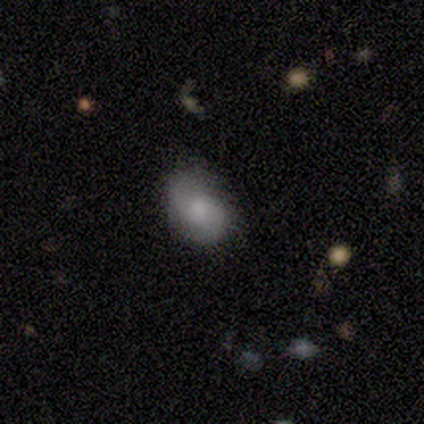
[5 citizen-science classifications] smooth 40% (tied), featured or disk 40% (tied), star or artifact 20%. Down the decision tree: how rounded — in between (100%); merging — none (100%).